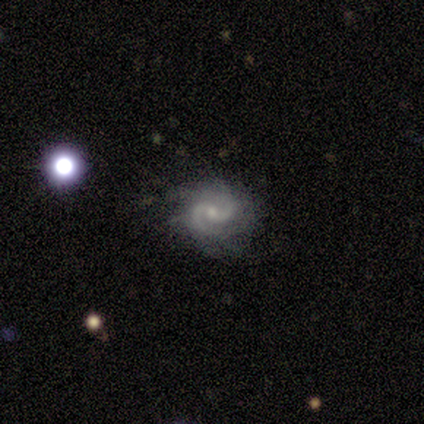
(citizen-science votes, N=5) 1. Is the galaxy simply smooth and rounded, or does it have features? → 100% featured or disk, 0% smooth, 0% star or artifact.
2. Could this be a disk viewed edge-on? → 100% no, 0% yes.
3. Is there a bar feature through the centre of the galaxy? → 80% no, 20% weak, 0% strong.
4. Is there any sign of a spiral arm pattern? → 100% yes, 0% no.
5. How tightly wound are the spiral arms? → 60% medium, 40% tight, 0% loose.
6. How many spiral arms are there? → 80% 2, 20% can't tell, 0% 1, 0% 3, 0% 4, 0% more than 4.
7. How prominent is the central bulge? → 60% small, 20% moderate, 20% none, 0% dominant, 0% large.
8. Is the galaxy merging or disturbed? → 60% minor disturbance, 40% none, 0% major disturbance, 0% merger.